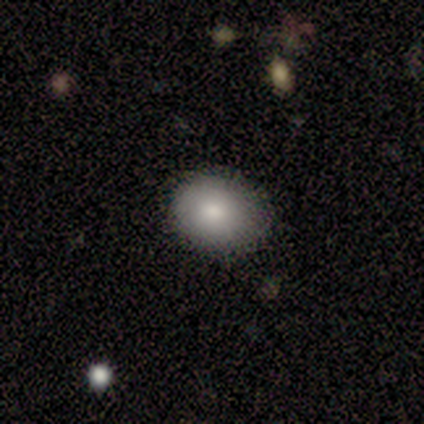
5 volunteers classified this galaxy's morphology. type=smooth (80%); roundness=in between (75%); merging=none (75%).